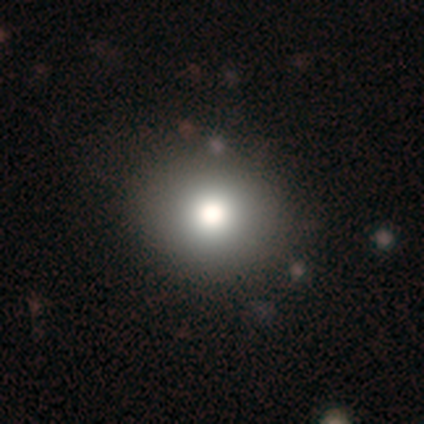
smooth-or-featured: smooth: 76% | star or artifact: 13% | featured or disk: 12%
  how-rounded: round: 86% | in between: 14% | cigar-shaped: 0%
  merging: none: 44% | minor disturbance: 4% | merger: 1% | major disturbance: 0%